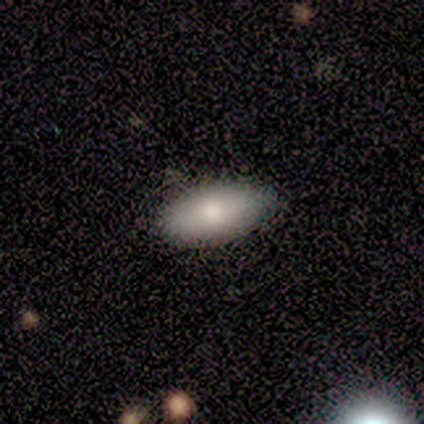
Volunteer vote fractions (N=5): A smooth galaxy with no disk features (100%) that is in between round and cigar-shaped (100%).

Vote fractions:
- Smooth or featured? smooth: 100% / featured or disk: 0% / star or artifact: 0%
- How rounded? in between: 100% / round: 0% / cigar-shaped: 0%
- Merging? none: 60% / minor disturbance: 40% / major disturbance: 0% / merger: 0%